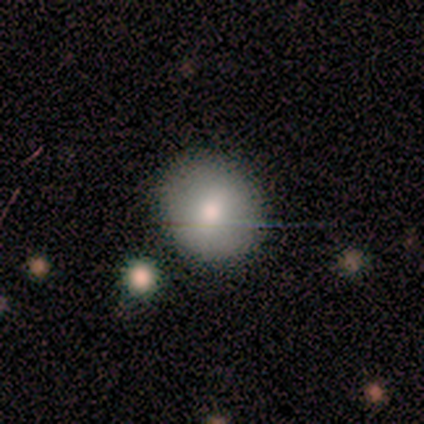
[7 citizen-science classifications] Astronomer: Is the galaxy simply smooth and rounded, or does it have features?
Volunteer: smooth — 86%.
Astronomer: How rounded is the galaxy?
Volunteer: round — 100%.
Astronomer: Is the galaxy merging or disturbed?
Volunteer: none — 100%.